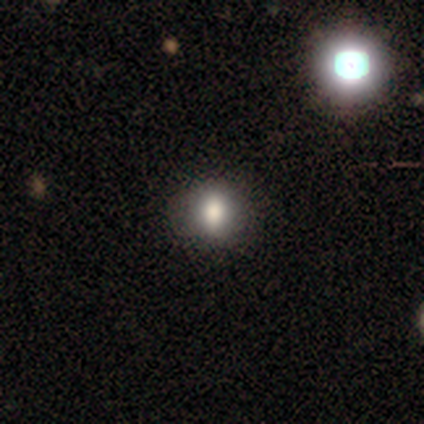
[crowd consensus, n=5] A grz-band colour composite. It shows a smooth galaxy with no disk features (100%) that is round (60%). Merging: none (80%).